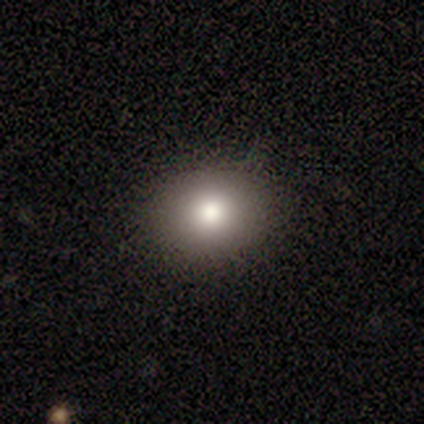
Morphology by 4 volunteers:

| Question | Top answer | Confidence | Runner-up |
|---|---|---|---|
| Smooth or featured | smooth | 75% | featured or disk (25%) |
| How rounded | round | 67% | in between (33%) |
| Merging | none | 100% | — |